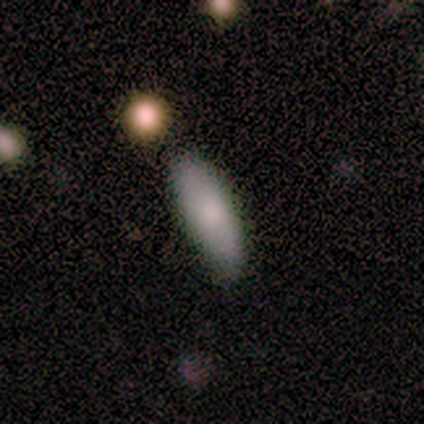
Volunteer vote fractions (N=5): This is clearly a smooth galaxy (100%). How rounded: clearly cigar-shaped (80%). Merging: clearly none (100%).